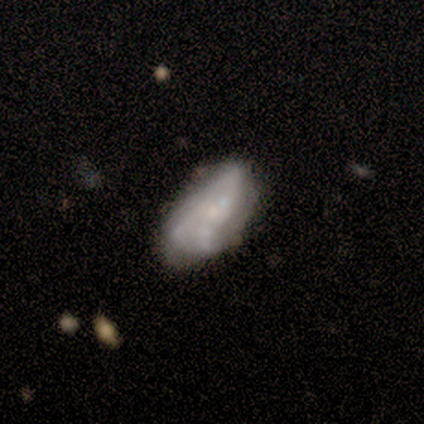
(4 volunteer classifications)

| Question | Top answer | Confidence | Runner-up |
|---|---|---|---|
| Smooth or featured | featured or disk | 75% | smooth (25%) |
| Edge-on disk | no | 100% | — |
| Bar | no | 67% | strong (33%) |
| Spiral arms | yes | 67% | no (33%) |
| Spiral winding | tight | 50% | tied: medium (50%) |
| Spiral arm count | can't tell | 100% | — |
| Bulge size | none | 100% | — |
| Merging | none | 50% | minor disturbance (25%) |